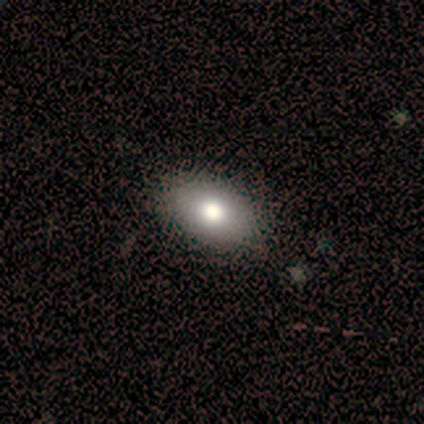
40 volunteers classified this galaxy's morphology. smooth 80%, featured or disk 15%, star or artifact 5%. Down the decision tree: how rounded — in between (88%); merging — none (79%).